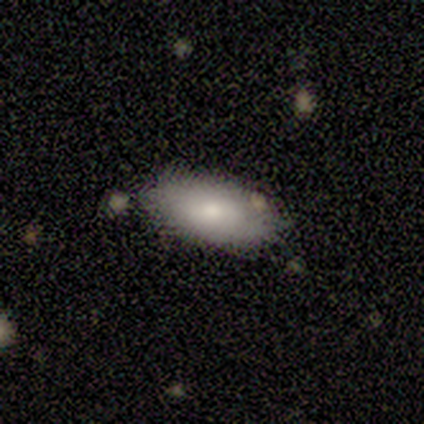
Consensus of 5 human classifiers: A smooth galaxy with no disk features (80%) that is in between round and cigar-shaped (100%).

Vote fractions:
- Smooth or featured? smooth: 80% / featured or disk: 20% / star or artifact: 0%
- How rounded? in between: 100% / round: 0% / cigar-shaped: 0%
- Merging? none: 80% / merger: 20% / minor disturbance: 0% / major disturbance: 0%